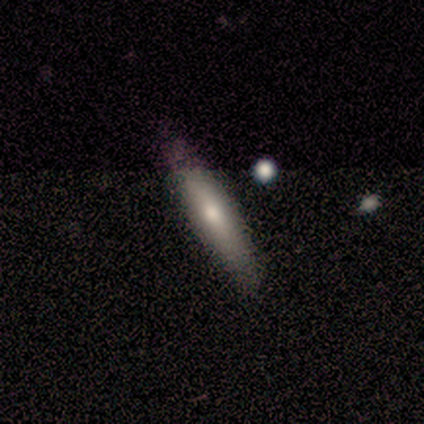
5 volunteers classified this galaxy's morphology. This is marginally a smooth galaxy (40%, tied with featured or disk). How rounded: clearly cigar-shaped (100%). Merging: clearly none (100%).